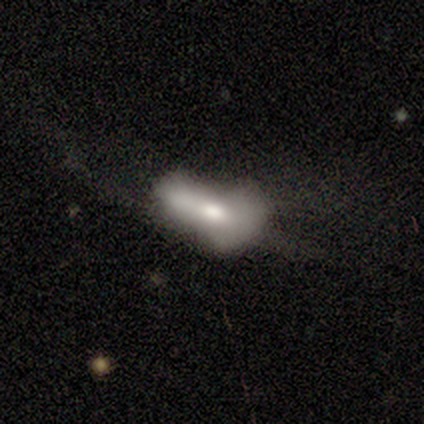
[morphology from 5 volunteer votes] Q: Smooth or featured?
A: featured or disk (60%); runner-up: smooth (40%)
Q: Edge-on disk?
A: no (100%)
Q: Bar?
A: no (67%); runner-up: weak (33%)
Q: Spiral arms?
A: no (100%)
Q: Bulge size?
A: moderate (100%)
Q: Merging?
A: major disturbance (60%); runner-up: none (20%)